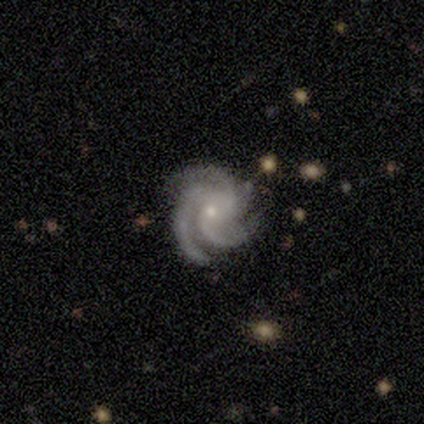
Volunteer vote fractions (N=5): Smooth or featured? 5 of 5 (100%) said featured or disk. Edge-on disk? 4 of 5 (80%) said no. Bar? 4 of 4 (100%) said no. Spiral arms? 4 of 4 (100%) said yes. Spiral winding? 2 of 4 (50%, tied with medium) said tight. Spiral arm count? 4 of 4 (100%) said 3. Bulge size? 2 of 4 (50%) said small. Merging? 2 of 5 (40%, tied with minor disturbance) said none.